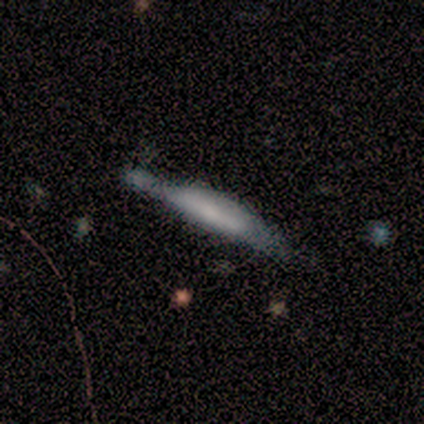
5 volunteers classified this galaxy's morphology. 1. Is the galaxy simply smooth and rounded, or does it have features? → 80% featured or disk, 20% star or artifact, 0% smooth.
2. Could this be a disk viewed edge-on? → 75% yes, 25% no.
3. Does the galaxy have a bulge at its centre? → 100% boxy, 0% none, 0% rounded.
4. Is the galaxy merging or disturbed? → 75% minor disturbance, 25% none, 0% major disturbance, 0% merger.